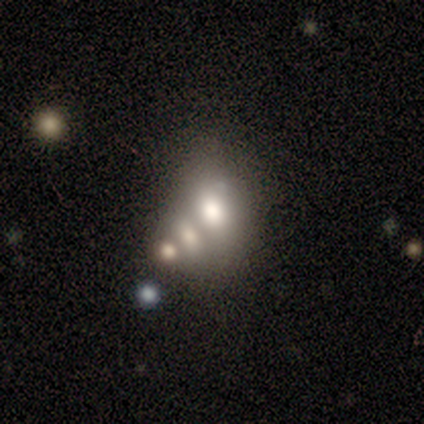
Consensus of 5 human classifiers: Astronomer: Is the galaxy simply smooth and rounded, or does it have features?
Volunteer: smooth — 80%.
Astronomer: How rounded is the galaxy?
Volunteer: in between — 75%.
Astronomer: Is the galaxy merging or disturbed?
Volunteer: merger — 75%.